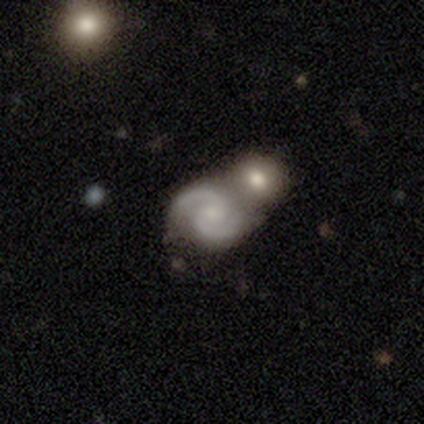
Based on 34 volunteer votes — Morphology: type=featured or disk (79%); edge-on=no (100%); bar=no (67%); spiral arms=yes (96%); winding=medium (58%); arm count=2 (96%); bulge=small (56%); merging=merger (72%).